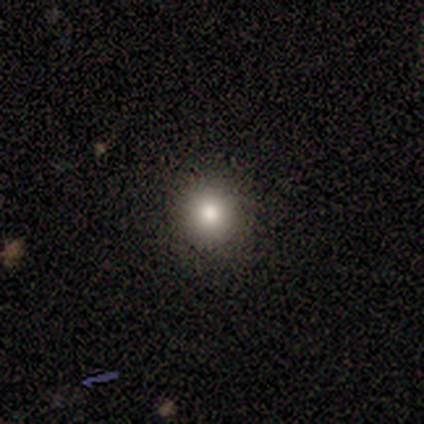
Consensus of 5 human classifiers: Smooth or featured: smooth — 100%
How rounded: round — 60% (in between — 40%)
Merging: none — 80% (major disturbance — 20%)